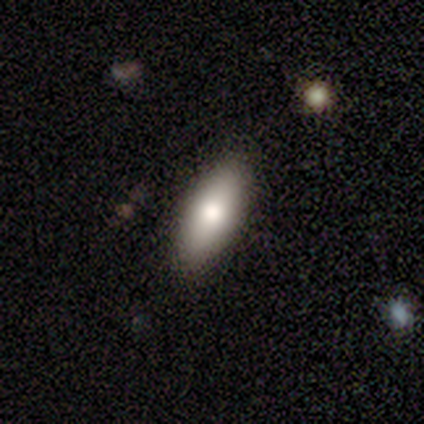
smooth-or-featured: smooth: 80% | featured or disk: 20% | star or artifact: 0%
  how-rounded: in between: 100% | round: 0% | cigar-shaped: 0%
  merging: none: 100% | minor disturbance: 0% | major disturbance: 0% | merger: 0%